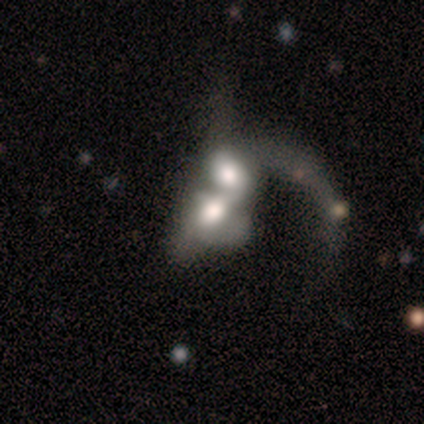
smooth_or_featured: smooth (p=0.51) [alt: featured or disk p=0.40]
how_rounded: in between (p=0.72) [alt: round p=0.26]
merging: merger (p=0.56) [alt: major disturbance p=0.09]